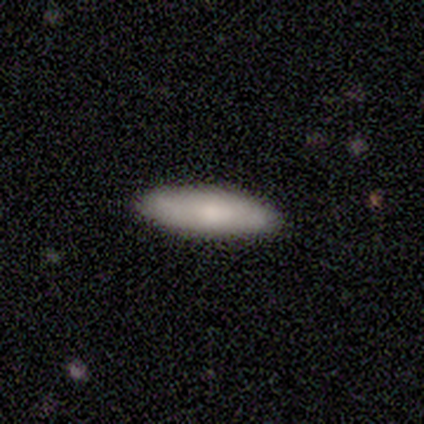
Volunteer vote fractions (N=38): smooth 87%, featured or disk 13%, star or artifact 0%. Down the decision tree: how rounded — cigar-shaped (64%); merging — none (89%).